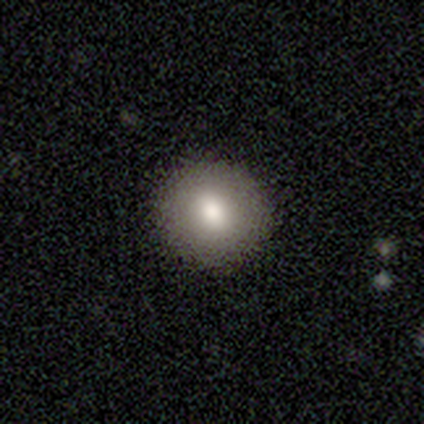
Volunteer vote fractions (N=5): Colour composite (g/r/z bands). It shows a smooth galaxy with no disk features (60%) that is round (100%). Merging: none (100%).